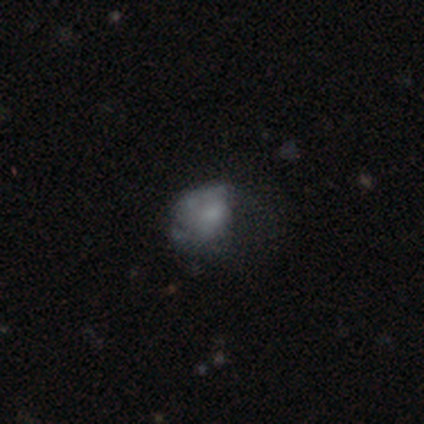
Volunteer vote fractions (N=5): Smooth or featured? 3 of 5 (60%) said smooth. How rounded? 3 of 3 (100%) said in between. Merging? 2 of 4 (50%, tied with major disturbance) said minor disturbance.